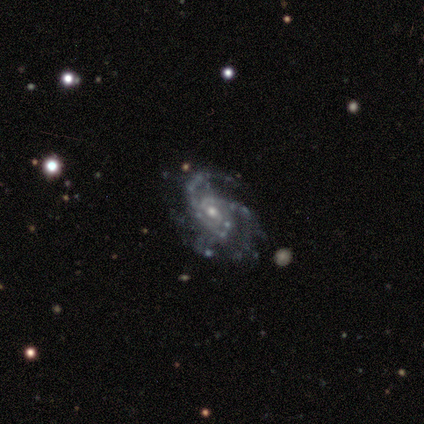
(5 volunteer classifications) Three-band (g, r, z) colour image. It shows a featured or disk galaxy (100%) with no bar (60%), 3 (40%) medium (100%) spiral arms (100%) and a moderate central bulge (80%). Merging: none (80%).